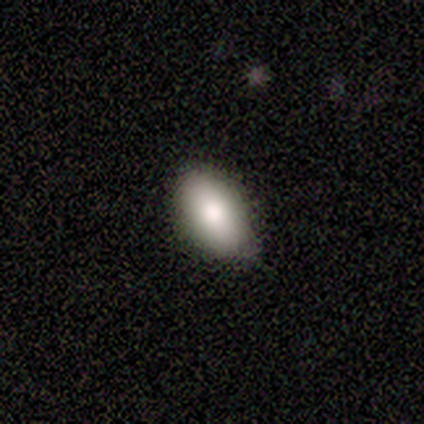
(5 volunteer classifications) Smooth or featured?
  - smooth: 100% *
  - featured or disk: 0%
  - star or artifact: 0%
How rounded?
  - in between: 80% *
  - round: 20%
  - cigar-shaped: 0%
Merging?
  - none: 100% *
  - minor disturbance: 0%
  - major disturbance: 0%
  - merger: 0%